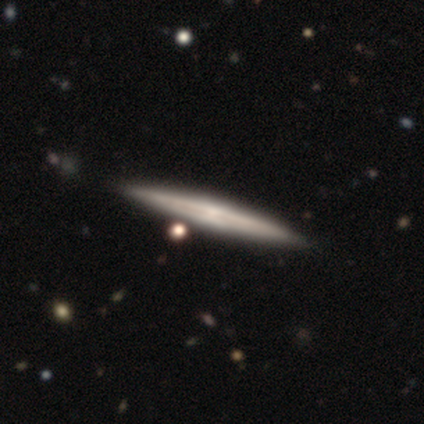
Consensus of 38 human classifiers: A featured or disk galaxy (61%) viewed edge-on (96%) with a rounded central bulge (41%).

Vote fractions:
- Smooth or featured? featured or disk: 61% / smooth: 37% / star or artifact: 3%
- Edge-on disk? yes: 96% / no: 4%
- Edge-on bulge? rounded: 41% / none: 36% / boxy: 23%
- Merging? none: 70% / minor disturbance: 8% / major disturbance: 0% / merger: 0%